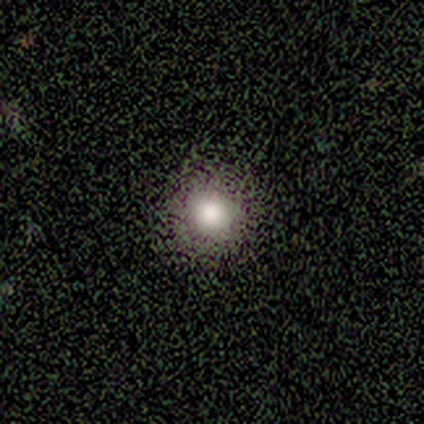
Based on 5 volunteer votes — smooth_or_featured: smooth (p=1.00)
how_rounded: round (p=1.00)
merging: none (p=0.80) [alt: major disturbance p=0.20]